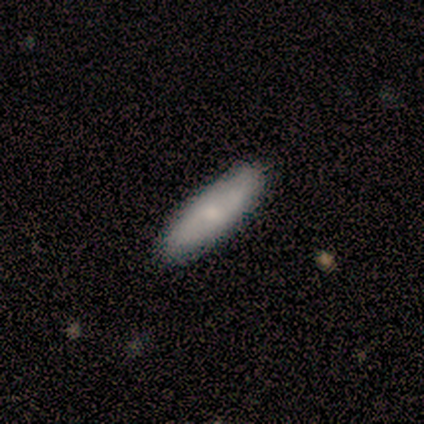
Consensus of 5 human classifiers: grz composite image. It shows a smooth galaxy with no disk features (100%) that is cigar-shaped (80%). Merging: none (80%).